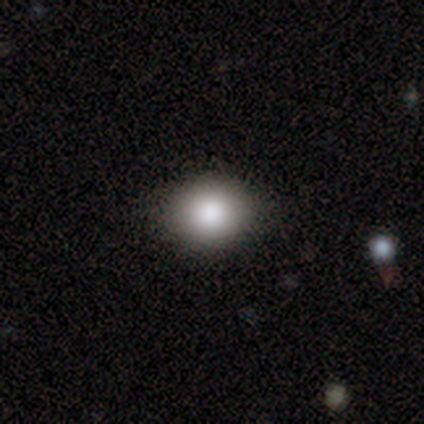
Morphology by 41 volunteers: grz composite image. It shows a smooth galaxy with no disk features (85%) that is round (71%). Merging: none (95%).